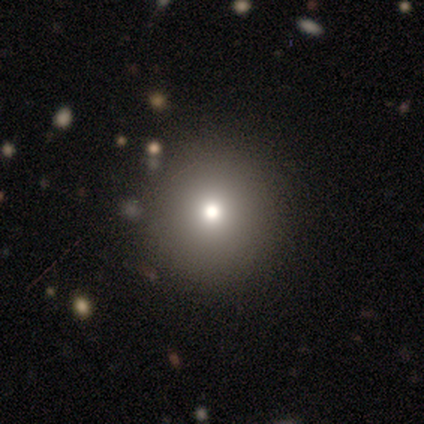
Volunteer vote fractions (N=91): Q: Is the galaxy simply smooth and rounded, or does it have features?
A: smooth — 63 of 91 (69%).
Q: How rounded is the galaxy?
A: round — 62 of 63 (98%).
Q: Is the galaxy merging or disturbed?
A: none — 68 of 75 (91%).